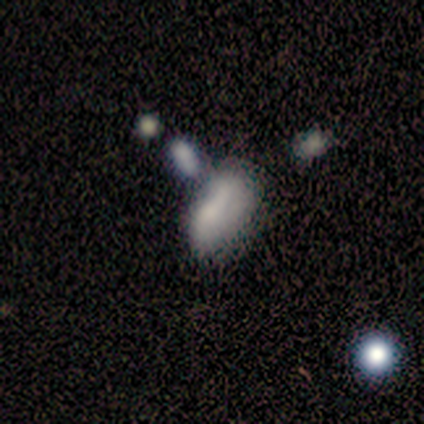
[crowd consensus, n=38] This is likely a smooth galaxy (68%). How rounded: clearly in between (85%). Merging: marginally minor disturbance (44%).